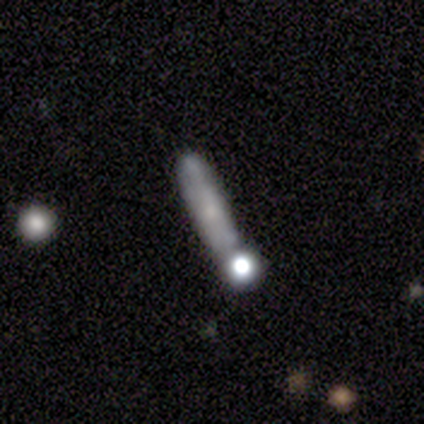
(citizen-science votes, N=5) A smooth galaxy with no disk features (80%) that is cigar-shaped (75%).

Vote fractions:
- Smooth or featured? smooth: 80% / featured or disk: 20% / star or artifact: 0%
- How rounded? cigar-shaped: 75% / round: 25% / in between: 0%
- Merging? minor disturbance: 40% / none: 20% / major disturbance: 20% / merger: 20%